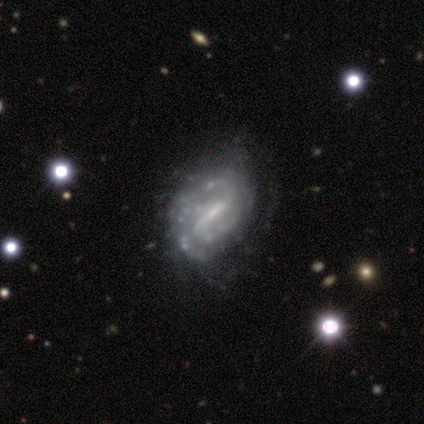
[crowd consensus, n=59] smooth_or_featured: featured or disk (p=0.92) [alt: smooth p=0.07]
disk_edge_on: no (p=0.98) [alt: yes p=0.02]
bar: weak (p=0.49) [alt: strong p=0.47]
has_spiral_arms: yes (p=0.83) [alt: no p=0.17]
spiral_winding: tight (p=0.52) [alt: medium p=0.25]
spiral_arm_count: 2 (p=0.48) [alt: can't tell p=0.41]
bulge_size: small (p=0.51) [alt: none p=0.32]
merging: none (p=0.45) [alt: minor disturbance p=0.29]